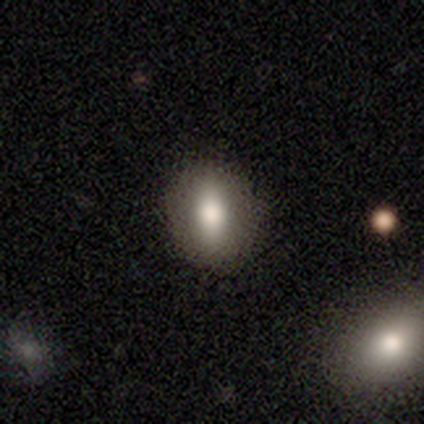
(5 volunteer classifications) smooth 60%, featured or disk 20%, star or artifact 20%. Down the decision tree: how rounded — in between (67%); merging — none (100%).